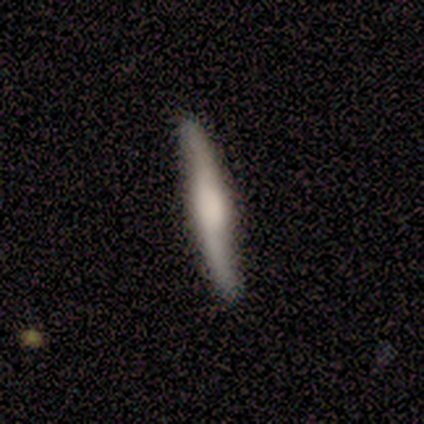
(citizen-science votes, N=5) Overall: featured or disk (80%). Edge-on disk: yes (75%). Edge-on bulge: rounded (67%; none 33%). Merging: none (80%).